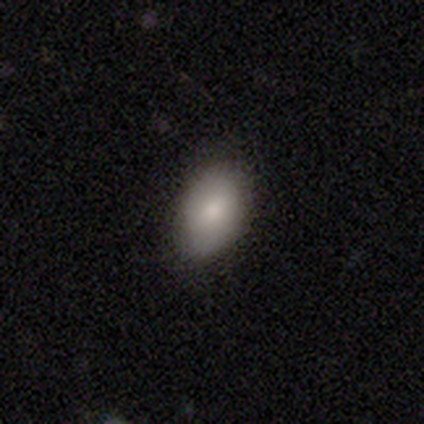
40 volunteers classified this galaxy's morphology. A smooth galaxy with no disk features (72%) that is in between round and cigar-shaped (97%). Merging: none (92%).